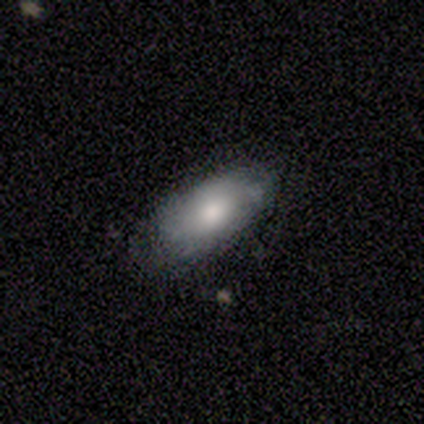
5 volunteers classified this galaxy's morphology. smooth_or_featured: smooth (p=1.00)
how_rounded: in between (p=0.80) [alt: cigar-shaped p=0.20]
merging: none (p=0.80) [alt: minor disturbance p=0.20]